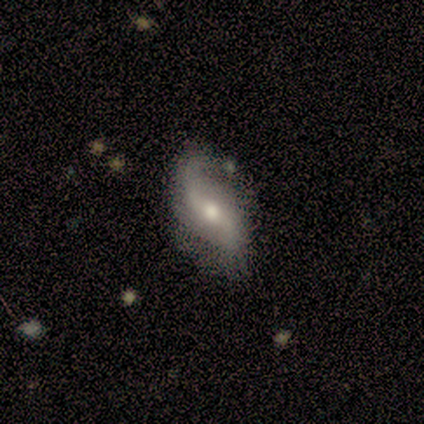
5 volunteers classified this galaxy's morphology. Q: Smooth or featured?
A: featured or disk (100%)
Q: Edge-on disk?
A: no (60%); runner-up: yes (40%)
Q: Bar?
A: strong (33%); tied with: weak (33%); no (33%)
Q: Spiral arms?
A: yes (100%)
Q: Spiral winding?
A: loose (100%)
Q: Spiral arm count?
A: 2 (100%)
Q: Bulge size?
A: large (33%); tied with: moderate (33%); small (33%)
Q: Merging?
A: none (60%); runner-up: minor disturbance (20%)